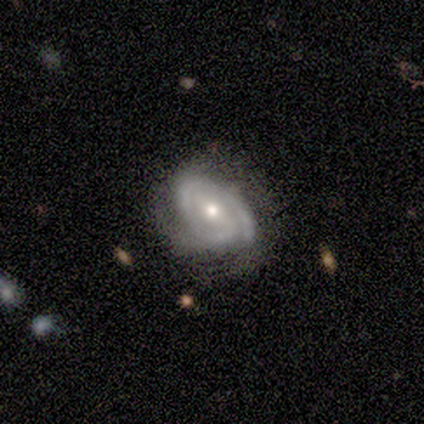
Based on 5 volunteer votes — This is clearly a featured or disk galaxy (80%). It is clearly not viewed edge-on (100%). Bar: likely no (75%). Spiral arm pattern: clearly yes (100%). Spiral arm count: possibly 2 (50%). Spiral winding: likely tight (75%). Central bulge: likely moderate (75%). Merging: likely none (60%).